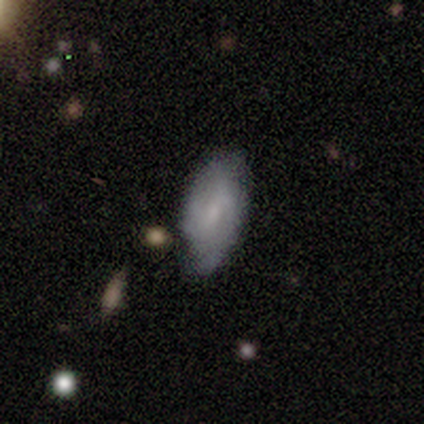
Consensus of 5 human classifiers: Smooth or featured?
  - smooth: 100% *
  - featured or disk: 0%
  - star or artifact: 0%
How rounded?
  - in between: 100% *
  - round: 0%
  - cigar-shaped: 0%
Merging?
  - none: 80% *
  - minor disturbance: 20%
  - major disturbance: 0%
  - merger: 0%